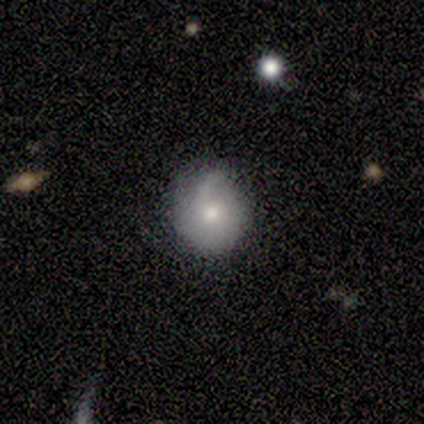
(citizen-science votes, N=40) Overall: smooth (55%; featured or disk 35%). How rounded: round (86%). Merging: none (69%; minor disturbance 31%).